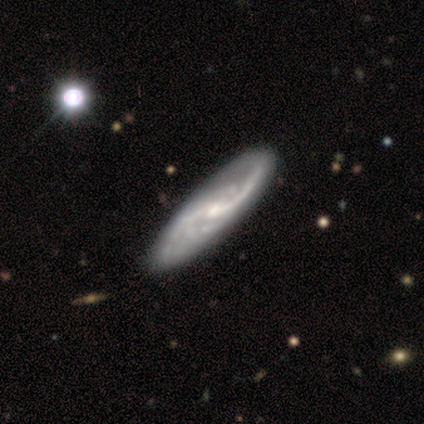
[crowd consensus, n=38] smooth-or-featured: featured or disk: 92% | smooth: 8% | star or artifact: 0%
  disk-edge-on: no: 89% | yes: 11%
    bar: no: 48% | weak: 42% | strong: 10%
    has-spiral-arms: yes: 97% | no: 3%
      spiral-winding: loose: 60% | medium: 23% | tight: 17%
      spiral-arm-count: 2: 60% | can't tell: 27% | 4: 7% | 1: 3% | 3: 3% | more than 4: 0%
    bulge-size: small: 68% | moderate: 23% | none: 6% | large: 3% | dominant: 0%
  merging: none: 53% | minor disturbance: 8% | major disturbance: 5% | merger: 5%